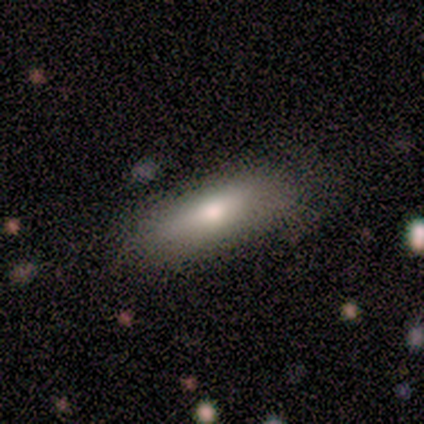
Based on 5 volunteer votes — Smooth or featured: smooth — 60% (featured or disk — 40%)
How rounded: in between — 100%
Merging: none — 80% (major disturbance — 20%)